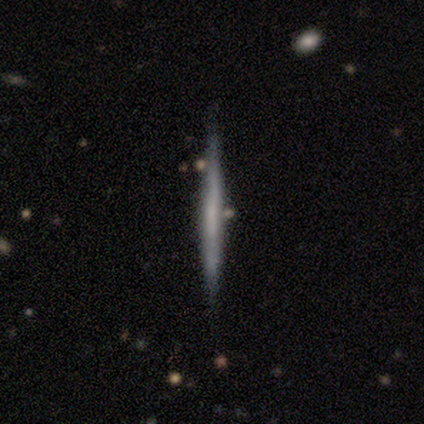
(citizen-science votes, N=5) Q: Smooth or featured?
A: featured or disk (80%); runner-up: smooth (20%)
Q: Edge-on disk?
A: yes (100%)
Q: Edge-on bulge?
A: none (75%); runner-up: rounded (25%)
Q: Merging?
A: none (100%)